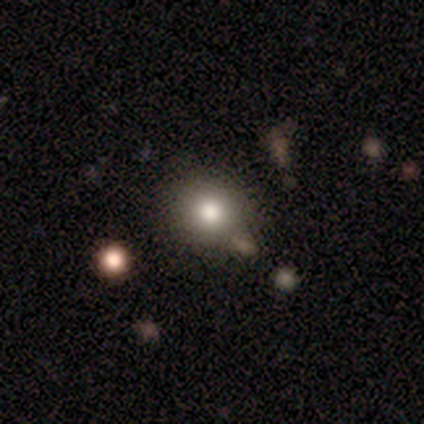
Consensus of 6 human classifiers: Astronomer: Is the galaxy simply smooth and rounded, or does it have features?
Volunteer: smooth — 100%.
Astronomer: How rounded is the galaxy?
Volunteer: round — 100%.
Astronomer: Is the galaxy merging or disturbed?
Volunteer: none — 100%.